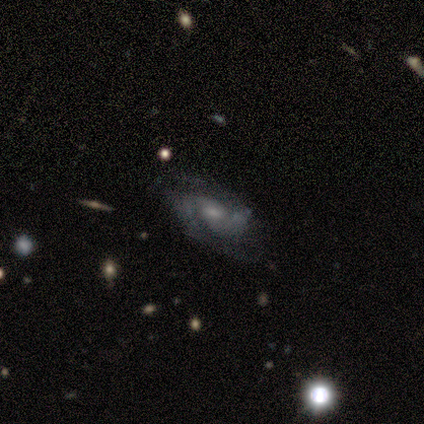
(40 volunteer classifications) smooth_or_featured: featured or disk (p=0.80) [alt: smooth p=0.10]
disk_edge_on: no (p=0.94) [alt: yes p=0.06]
bar: weak (p=0.63) [alt: no p=0.27]
has_spiral_arms: yes (p=0.97) [alt: no p=0.03]
spiral_winding: medium (p=0.41) [alt: tight p=0.31]
spiral_arm_count: 2 (p=0.72) [alt: can't tell p=0.21]
bulge_size: small (p=0.63) [alt: moderate p=0.37]
merging: none (p=0.64) [alt: minor disturbance p=0.19]